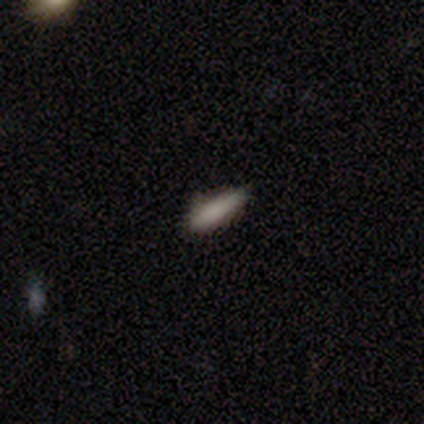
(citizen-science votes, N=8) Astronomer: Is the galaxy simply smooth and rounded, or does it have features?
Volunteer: smooth — 88%.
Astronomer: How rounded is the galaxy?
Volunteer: cigar-shaped — 71%.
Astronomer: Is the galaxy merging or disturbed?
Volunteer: none — 88%.